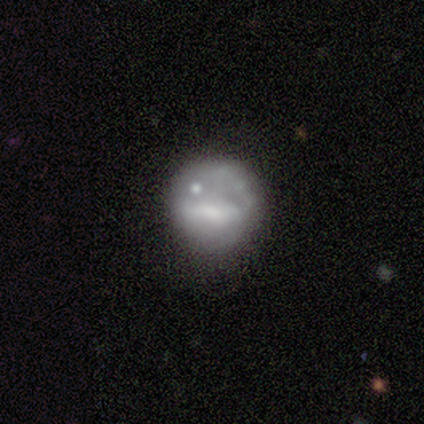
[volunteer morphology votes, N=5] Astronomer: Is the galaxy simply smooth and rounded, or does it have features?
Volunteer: featured or disk — 80%.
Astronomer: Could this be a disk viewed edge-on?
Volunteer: no — 100%.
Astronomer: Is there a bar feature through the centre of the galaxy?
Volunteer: no — 50%.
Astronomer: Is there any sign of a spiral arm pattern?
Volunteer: no — 100%.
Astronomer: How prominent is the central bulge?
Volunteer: moderate — 50%.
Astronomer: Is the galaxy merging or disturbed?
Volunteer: none — 80%.